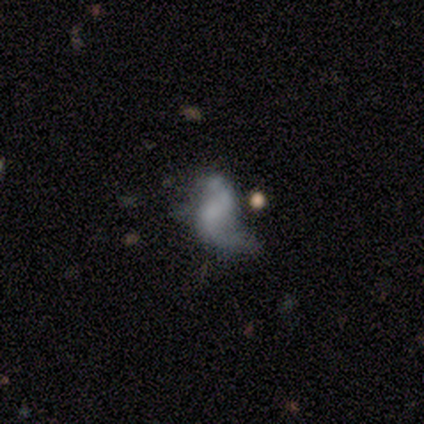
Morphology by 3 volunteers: Smooth or featured?
  - featured or disk: 100% *
  - smooth: 0%
  - star or artifact: 0%
Edge-on disk?
  - no: 100% *
  - yes: 0%
Bar?
  - no: 67% *
  - weak: 33%
  - strong: 0%
Spiral arms?
  - no: 67% *
  - yes: 33%
Bulge size?
  - none: 100% *
  - dominant: 0%
  - large: 0%
  - moderate: 0%
  - small: 0%
Merging?
  - major disturbance: 67% *
  - none: 33%
  - minor disturbance: 0%
  - merger: 0%